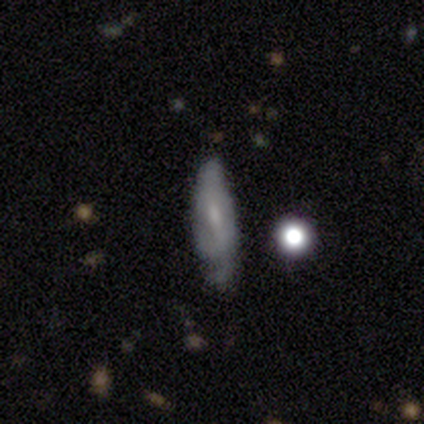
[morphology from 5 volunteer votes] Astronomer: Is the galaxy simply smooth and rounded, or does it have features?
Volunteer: featured or disk — 60%.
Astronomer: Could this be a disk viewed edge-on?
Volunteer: no — 67%.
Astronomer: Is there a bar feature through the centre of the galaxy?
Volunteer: weak — 50%, tied with no at 50%.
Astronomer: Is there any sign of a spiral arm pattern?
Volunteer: yes — 50%, tied with no at 50%.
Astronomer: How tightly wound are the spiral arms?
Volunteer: medium — 100%.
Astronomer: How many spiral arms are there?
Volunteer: can't tell — 100%.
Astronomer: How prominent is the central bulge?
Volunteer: small — 50%, tied with none at 50%.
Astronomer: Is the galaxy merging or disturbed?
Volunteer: none — 50%, tied with minor disturbance at 50%.